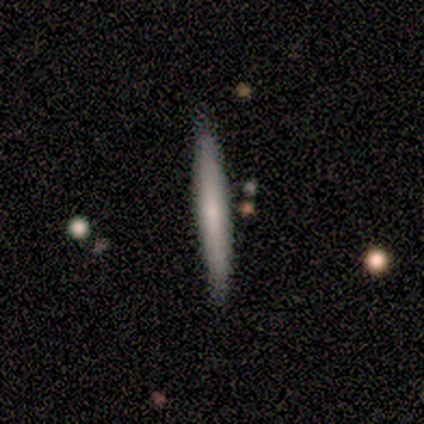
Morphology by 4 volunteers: A smooth galaxy with no disk features (50%, tied with featured or disk) that is cigar-shaped (100%). Merging: none (100%).